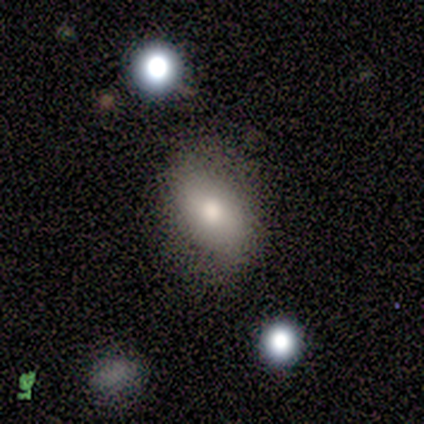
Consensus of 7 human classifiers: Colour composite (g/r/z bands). It shows a smooth galaxy with no disk features (71%) that is in between round and cigar-shaped (100%). Merging: none (50%).